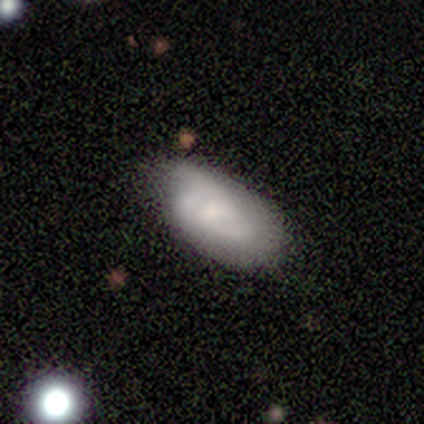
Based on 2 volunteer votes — A smooth galaxy with no disk features (50%, tied with featured or disk) that is in between round and cigar-shaped (100%).

Vote fractions:
- Smooth or featured? smooth: 50% (tied) / featured or disk: 50% (tied) / star or artifact: 0%
- How rounded? in between: 100% / round: 0% / cigar-shaped: 0%
- Merging? none: 50% (tied) / merger: 50% (tied) / minor disturbance: 0% / major disturbance: 0%